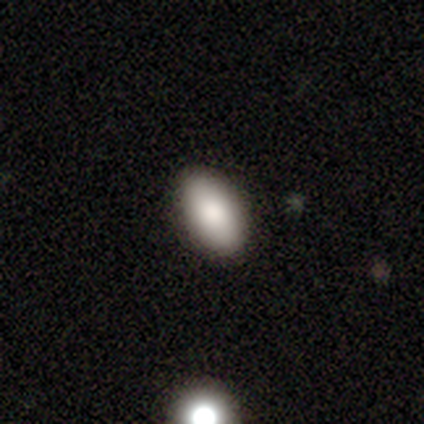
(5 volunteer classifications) Q: Smooth or featured?
A: smooth (100%)
Q: How rounded?
A: in between (100%)
Q: Merging?
A: none (100%)